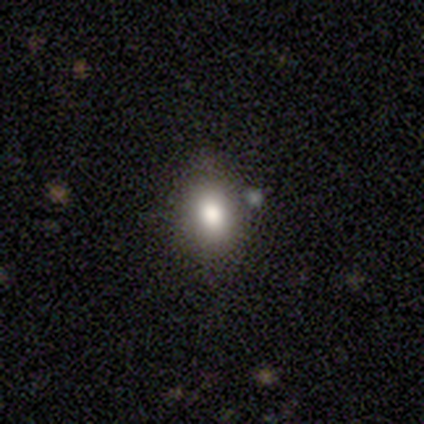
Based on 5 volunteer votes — Smooth or featured?
  - smooth: 60% *
  - featured or disk: 40%
  - star or artifact: 0%
How rounded?
  - round: 67% *
  - in between: 33%
  - cigar-shaped: 0%
Merging?
  - none: 60% *
  - minor disturbance: 20%
  - major disturbance: 20%
  - merger: 0%